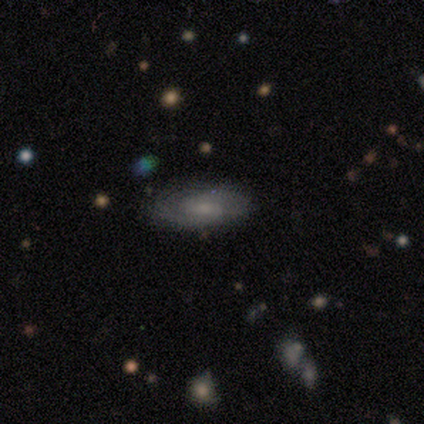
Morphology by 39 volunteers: Volunteers were most divided on "spiral winding" (2-way tie): tight: 41%, medium: 41%, loose: 18%. More confident: edge-on disk — no (96%); spiral arm count — 2 (82%); spiral arms — yes (77%); merging — none (76%); smooth or featured — featured or disk (59%); bulge size — small (55%); bar — no (50%).